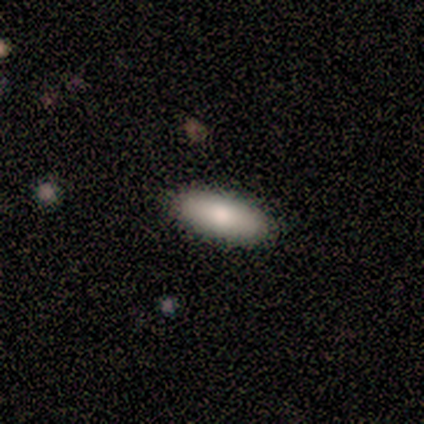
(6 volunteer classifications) Smooth or featured: smooth — 100%
How rounded: in between — 67% (cigar-shaped — 33%)
Merging: none — 100%